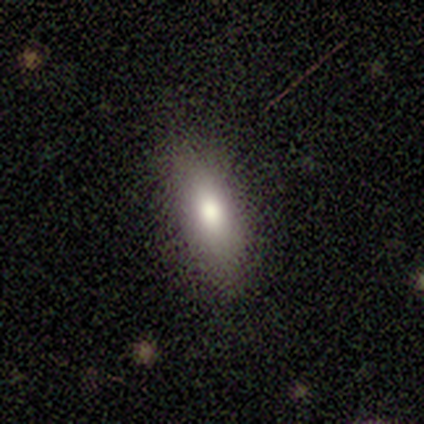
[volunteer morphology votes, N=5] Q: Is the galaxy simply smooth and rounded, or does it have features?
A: smooth — 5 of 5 (100%).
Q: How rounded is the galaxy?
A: in between — 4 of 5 (80%).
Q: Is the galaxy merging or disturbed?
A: none — 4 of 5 (80%).